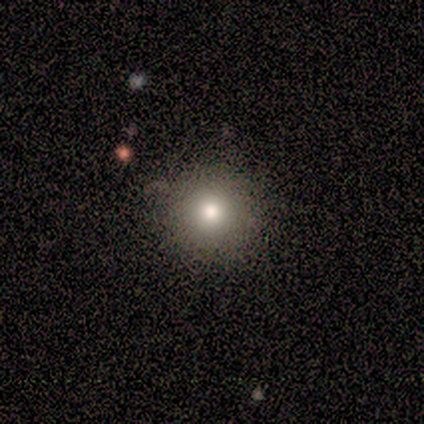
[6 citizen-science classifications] Overall: smooth (100%). How rounded: round (100%). Merging: none (67%; minor disturbance 33%).